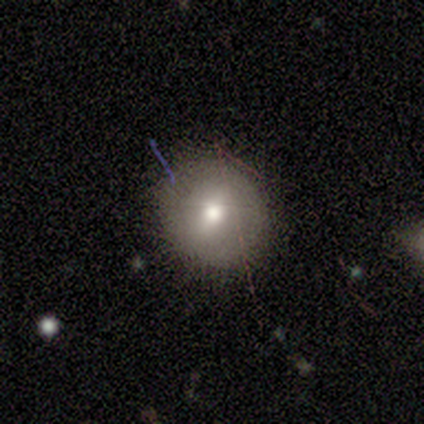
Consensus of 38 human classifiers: A smooth galaxy with no disk features (74%) that is round (86%).

Vote fractions:
- Smooth or featured? smooth: 74% / featured or disk: 21% / star or artifact: 5%
- How rounded? round: 86% / in between: 14% / cigar-shaped: 0%
- Merging? none: 86% / minor disturbance: 8% / major disturbance: 6% / merger: 0%